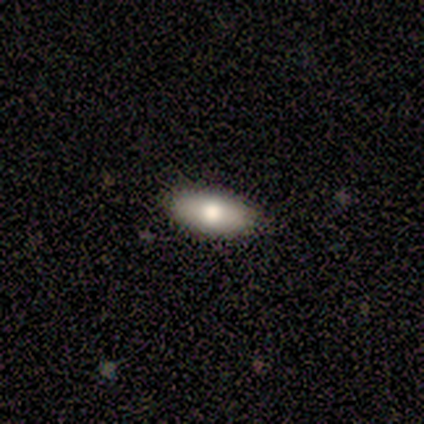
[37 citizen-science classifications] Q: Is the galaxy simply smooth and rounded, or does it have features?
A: smooth — 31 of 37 (84%).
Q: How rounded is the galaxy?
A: in between — 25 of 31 (81%).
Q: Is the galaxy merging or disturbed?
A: none — 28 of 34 (82%).